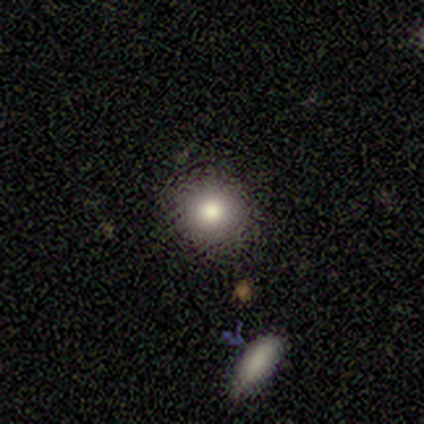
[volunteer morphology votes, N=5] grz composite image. It shows a smooth galaxy with no disk features (40%, tied with featured or disk) that is round (100%). Merging: none (100%).